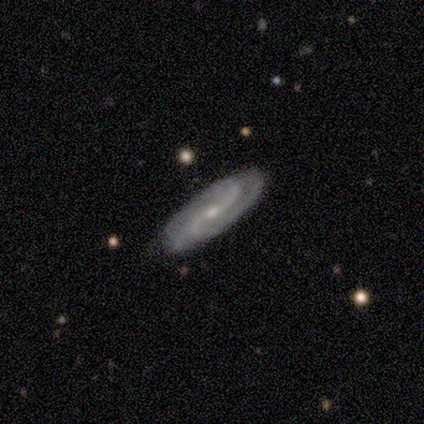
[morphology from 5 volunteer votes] Smooth or featured?
  - featured or disk: 80% *
  - smooth: 20%
  - star or artifact: 0%
Edge-on disk?
  - no: 100% *
  - yes: 0%
Bar?
  - weak: 50% *
  - strong: 25%
  - no: 25%
Spiral arms?
  - yes: 100% *
  - no: 0%
Spiral winding?
  - medium: 75% *
  - loose: 25%
  - tight: 0%
Spiral arm count?
  - 2: 100% *
  - 1: 0%
  - 3: 0%
  - 4: 0%
  - more than 4: 0%
  - can't tell: 0%
Bulge size?
  - small: 75% *
  - moderate: 25%
  - dominant: 0%
  - large: 0%
  - none: 0%
Merging?
  - none: 80% *
  - minor disturbance: 20%
  - major disturbance: 0%
  - merger: 0%